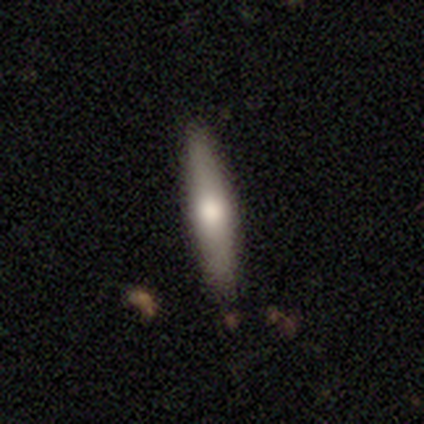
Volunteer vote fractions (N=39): smooth-or-featured: smooth: 51% | featured or disk: 44% | star or artifact: 5%
  how-rounded: cigar-shaped: 100% | round: 0% | in between: 0%
  merging: none: 92% | minor disturbance: 8% | major disturbance: 0% | merger: 0%